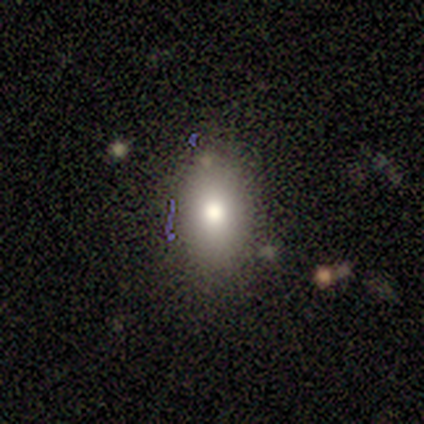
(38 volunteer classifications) smooth_or_featured: smooth (p=0.76) [alt: star or artifact p=0.16]
how_rounded: in between (p=0.72) [alt: cigar-shaped p=0.17]
merging: none (p=0.81) [alt: minor disturbance p=0.09]